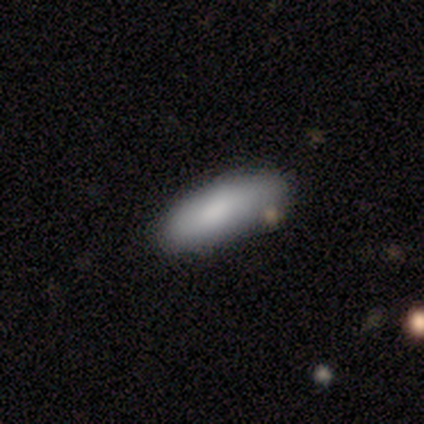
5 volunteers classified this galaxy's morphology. Overall: smooth (100%). How rounded: in between (100%). Merging: none (60%; minor disturbance 20%).